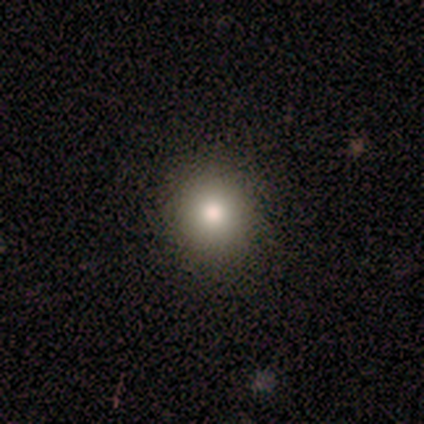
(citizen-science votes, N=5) smooth-or-featured: smooth: 60% | featured or disk: 20% | star or artifact: 20%
  how-rounded: round: 100% | in between: 0% | cigar-shaped: 0%
  merging: none: 100% | minor disturbance: 0% | major disturbance: 0% | merger: 0%